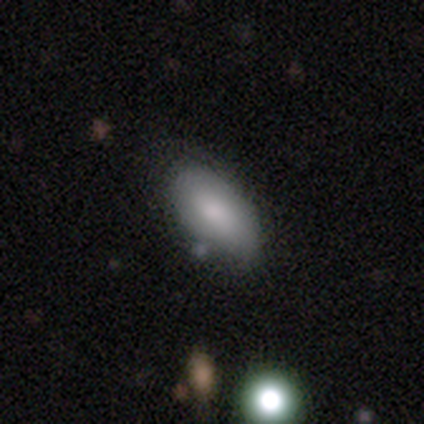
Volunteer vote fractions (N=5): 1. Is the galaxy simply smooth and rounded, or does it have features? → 100% smooth, 0% featured or disk, 0% star or artifact.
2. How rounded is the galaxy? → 100% in between, 0% round, 0% cigar-shaped.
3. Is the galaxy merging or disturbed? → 80% none, 20% minor disturbance, 0% major disturbance, 0% merger.